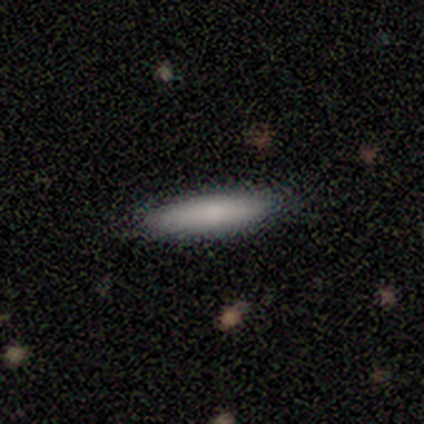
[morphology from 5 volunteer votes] Smooth or featured? 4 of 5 (80%) said smooth. How rounded? 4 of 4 (100%) said cigar-shaped. Merging? 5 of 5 (100%) said none.